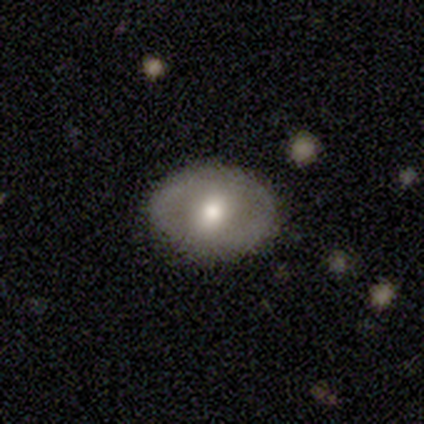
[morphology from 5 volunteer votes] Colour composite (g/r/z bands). It shows a smooth galaxy with no disk features (40%, tied with featured or disk) that is in between round and cigar-shaped (100%). Merging: none (100%).